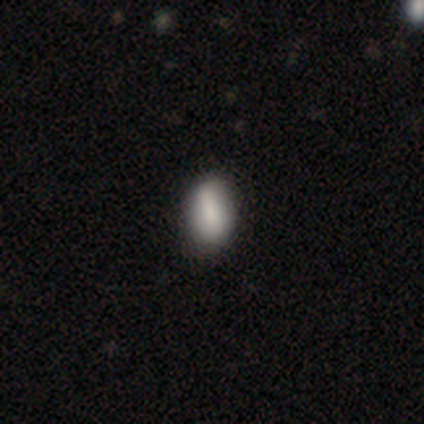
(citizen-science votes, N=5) smooth 80%, featured or disk 20%, star or artifact 0%. Down the decision tree: how rounded — in between (100%); merging — none (80%).